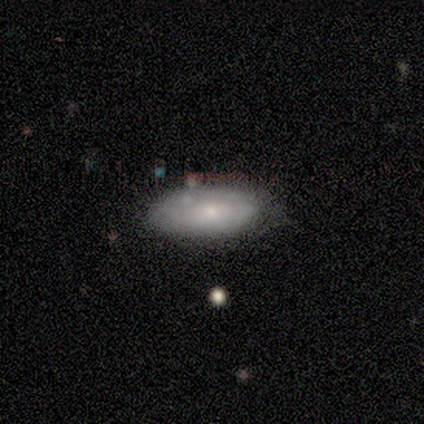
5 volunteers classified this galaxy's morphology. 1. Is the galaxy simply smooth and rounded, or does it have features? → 80% smooth, 20% featured or disk, 0% star or artifact.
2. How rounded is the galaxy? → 100% in between, 0% round, 0% cigar-shaped.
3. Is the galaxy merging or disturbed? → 80% none, 20% minor disturbance, 0% major disturbance, 0% merger.